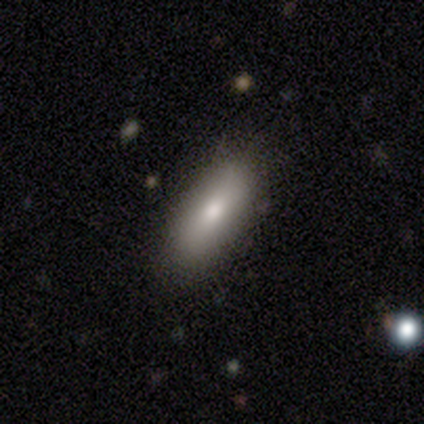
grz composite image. It shows a smooth galaxy with no disk features (88%) that is in between round and cigar-shaped (86%). Merging: none (100%).